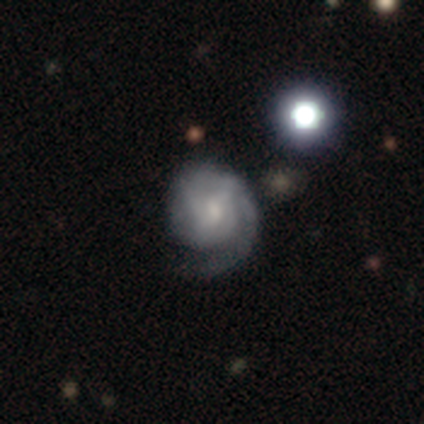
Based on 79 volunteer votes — featured or disk 77%, smooth 16%, star or artifact 6%. Down the decision tree: edge-on disk — no (100%); bar — weak (46%); spiral arms — yes (93%); spiral arm count — 1 (47%); spiral winding — tight (49%); bulge size — small (57%); merging — none (22%).